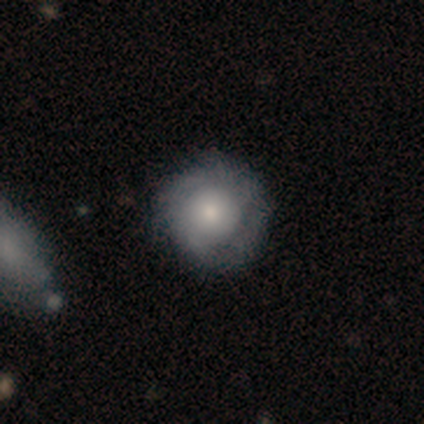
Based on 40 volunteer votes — smooth_or_featured: featured or disk (p=0.50) [alt: smooth p=0.42]
disk_edge_on: no (p=1.00)
bar: no (p=0.95) [alt: weak p=0.05]
has_spiral_arms: yes (p=0.70) [alt: no p=0.30]
spiral_winding: tight (p=0.79) [alt: medium p=0.21]
spiral_arm_count: can't tell (p=0.64) [alt: 2 p=0.29]
bulge_size: moderate (p=0.35) [alt: large p=0.30]
merging: none (p=0.59) [alt: minor disturbance p=0.11]